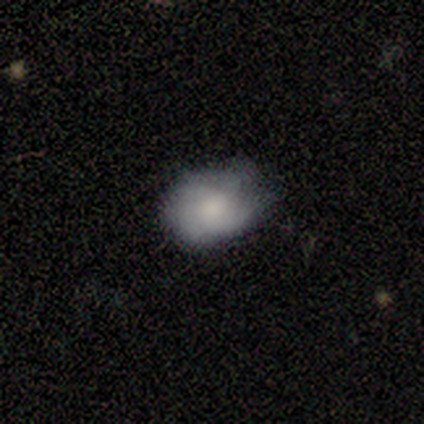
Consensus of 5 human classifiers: A smooth galaxy with no disk features (80%) that is in between round and cigar-shaped (75%). Merging: none (80%).